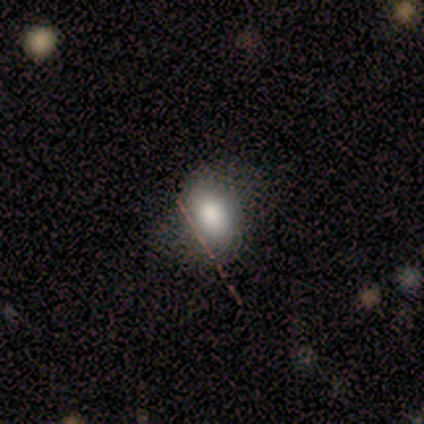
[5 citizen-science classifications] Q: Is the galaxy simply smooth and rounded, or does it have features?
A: smooth — 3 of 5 (60%).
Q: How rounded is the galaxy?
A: in between — 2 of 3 (67%).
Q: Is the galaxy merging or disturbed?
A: none — 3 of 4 (75%).